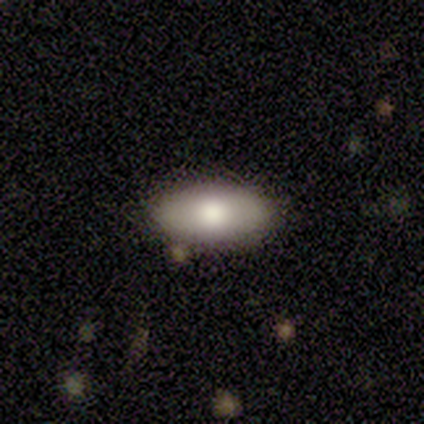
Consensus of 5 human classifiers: smooth-or-featured: smooth: 60% | featured or disk: 40% | star or artifact: 0%
  how-rounded: in between: 100% | round: 0% | cigar-shaped: 0%
  merging: none: 100% | minor disturbance: 0% | major disturbance: 0% | merger: 0%